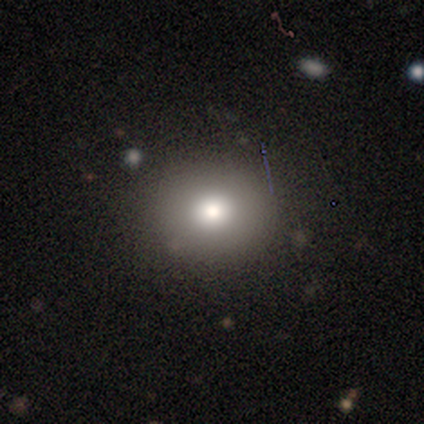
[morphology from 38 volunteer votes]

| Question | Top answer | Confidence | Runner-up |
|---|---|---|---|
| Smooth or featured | smooth | 74% | featured or disk (16%) |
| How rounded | round | 86% | in between (14%) |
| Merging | none | 91% | minor disturbance (9%) |